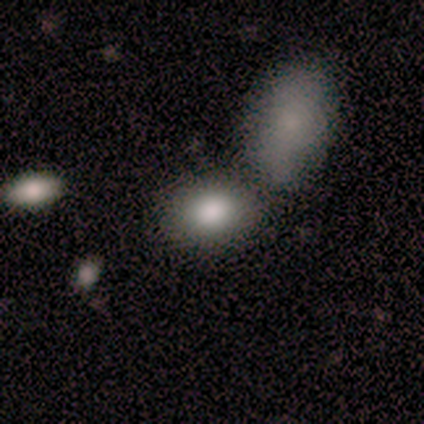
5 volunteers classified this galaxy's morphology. Q: Smooth or featured?
A: smooth (100%)
Q: How rounded?
A: in between (80%); runner-up: round (20%)
Q: Merging?
A: none (40%); tied with: minor disturbance (40%)